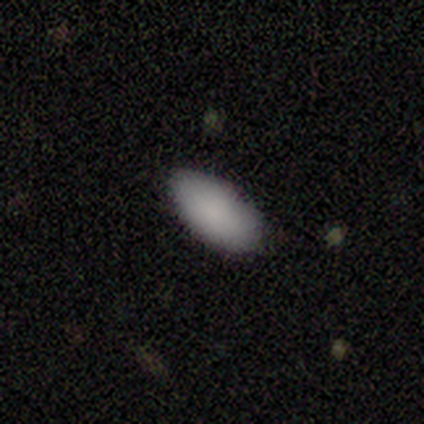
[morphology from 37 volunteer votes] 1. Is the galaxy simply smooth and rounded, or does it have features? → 97% smooth, 3% star or artifact, 0% featured or disk.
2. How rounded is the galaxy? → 94% in between, 3% round, 3% cigar-shaped.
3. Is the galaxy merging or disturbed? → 78% none, 22% minor disturbance, 0% major disturbance, 0% merger.